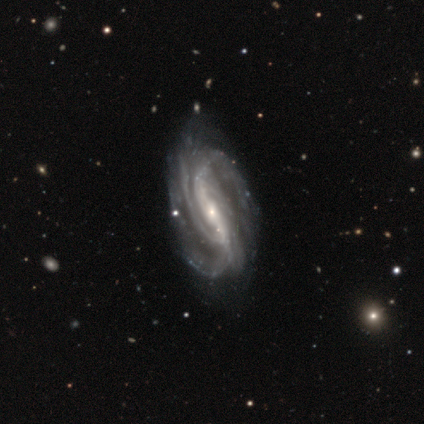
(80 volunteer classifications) This appears to be a featured or disk galaxy (99%) with a strong bar (70%), 3 (38%) medium (49%) spiral arms (97%) and a small central bulge (67%). Merging: none (61%).